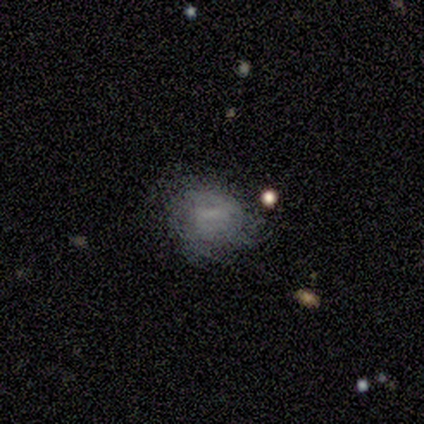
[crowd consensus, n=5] A smooth galaxy with no disk features (80%) that is round (75%). Merging: none (80%).